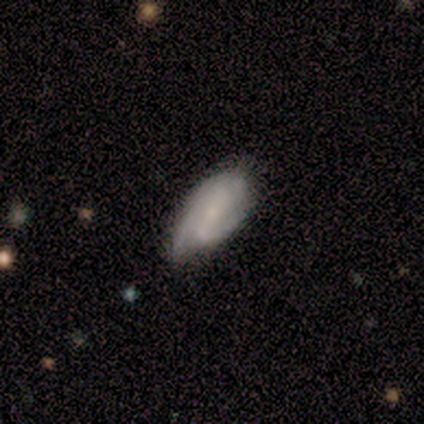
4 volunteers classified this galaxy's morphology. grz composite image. It shows a smooth galaxy with no disk features (50%, tied with featured or disk) that is in between round and cigar-shaped (100%). Merging: minor disturbance (75%).